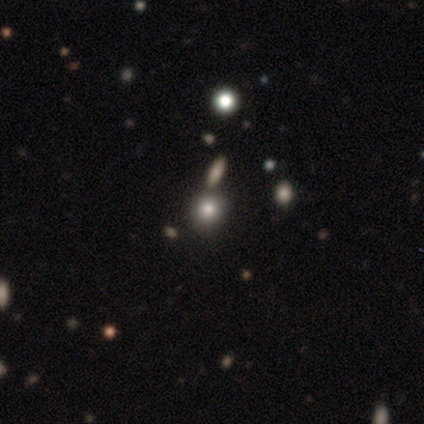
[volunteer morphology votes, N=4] smooth_or_featured: star or artifact (p=0.50) [alt: smooth p=0.25]